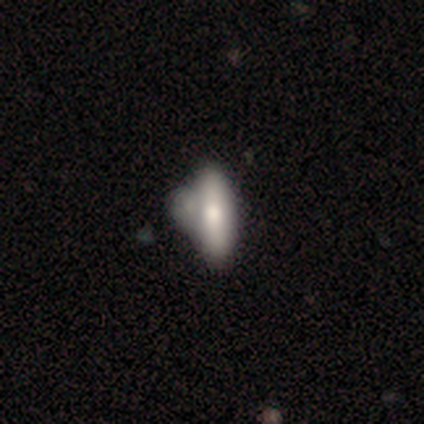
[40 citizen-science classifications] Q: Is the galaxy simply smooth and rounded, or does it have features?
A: smooth — 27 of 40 (68%).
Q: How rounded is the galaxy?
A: in between — 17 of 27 (63%).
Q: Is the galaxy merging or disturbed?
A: merger — 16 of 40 (40%).